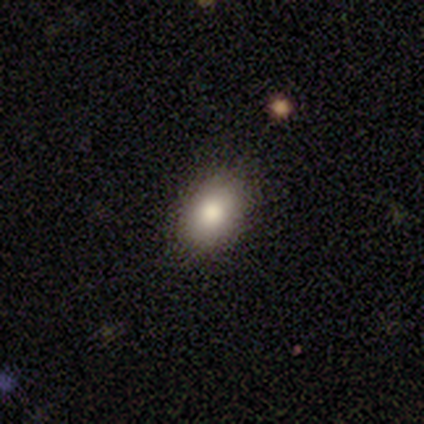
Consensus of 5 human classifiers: smooth_or_featured: smooth (p=1.00)
how_rounded: in between (p=1.00)
merging: none (p=0.80) [alt: minor disturbance p=0.20]